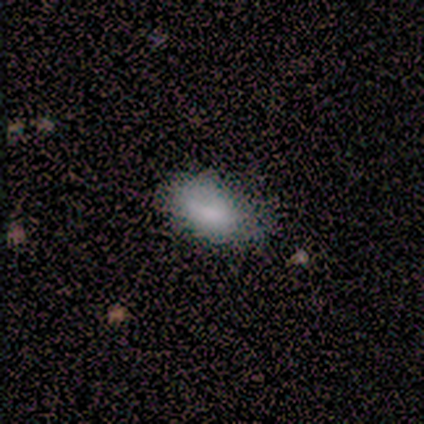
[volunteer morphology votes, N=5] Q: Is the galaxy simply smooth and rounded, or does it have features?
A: smooth — 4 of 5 (80%).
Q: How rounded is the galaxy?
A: in between — 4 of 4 (100%).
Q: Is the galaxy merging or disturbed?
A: none — 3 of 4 (75%).